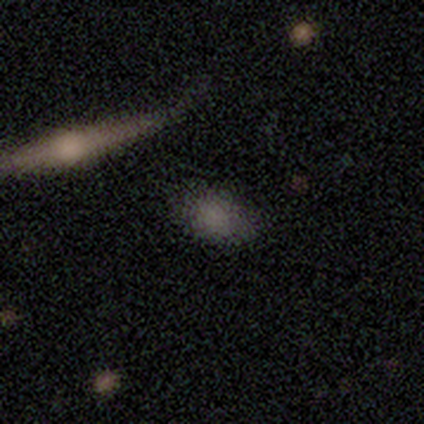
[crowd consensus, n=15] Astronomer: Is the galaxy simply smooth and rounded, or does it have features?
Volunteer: smooth — 80%.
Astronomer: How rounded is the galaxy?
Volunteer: in between — 75%.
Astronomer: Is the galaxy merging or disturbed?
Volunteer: none — 73%.